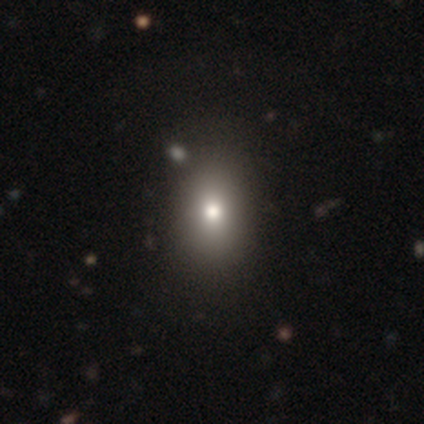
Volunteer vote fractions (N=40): Overall: smooth (78%). How rounded: in between (65%; round 35%). Merging: none (62%).